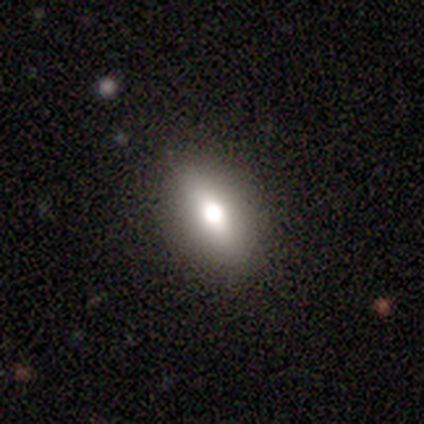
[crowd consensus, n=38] A smooth galaxy with no disk features (61%) that is in between round and cigar-shaped (83%).

Vote fractions:
- Smooth or featured? smooth: 61% / featured or disk: 26% / star or artifact: 13%
- How rounded? in between: 83% / round: 9% / cigar-shaped: 9%
- Merging? none: 85% / minor disturbance: 9% / major disturbance: 6% / merger: 0%